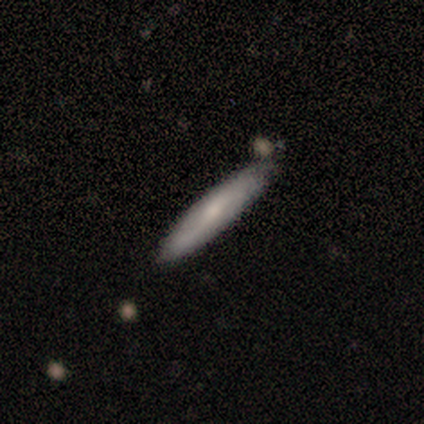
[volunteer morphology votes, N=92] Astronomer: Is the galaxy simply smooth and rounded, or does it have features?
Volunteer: smooth — 61%.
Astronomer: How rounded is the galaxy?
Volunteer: cigar-shaped — 95%.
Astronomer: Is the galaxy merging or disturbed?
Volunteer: none — 79%.